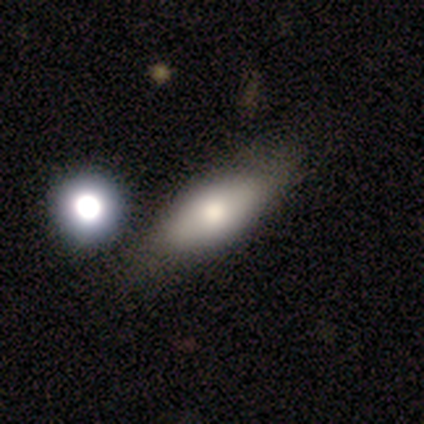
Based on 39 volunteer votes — This is likely a smooth galaxy (62%). How rounded: possibly in between (58%). Merging: clearly none (81%).